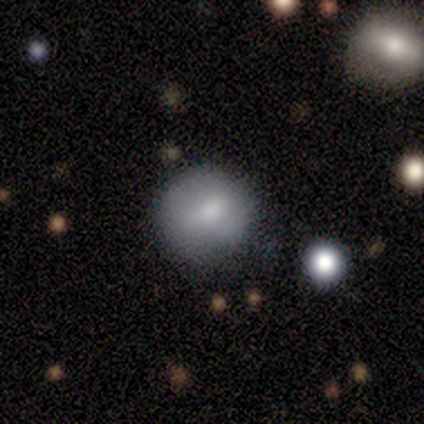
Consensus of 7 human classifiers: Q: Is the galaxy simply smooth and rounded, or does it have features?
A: smooth — 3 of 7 (43%, tied with featured or disk).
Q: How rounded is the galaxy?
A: round — 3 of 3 (100%).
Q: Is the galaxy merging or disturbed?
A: none — 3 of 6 (50%).